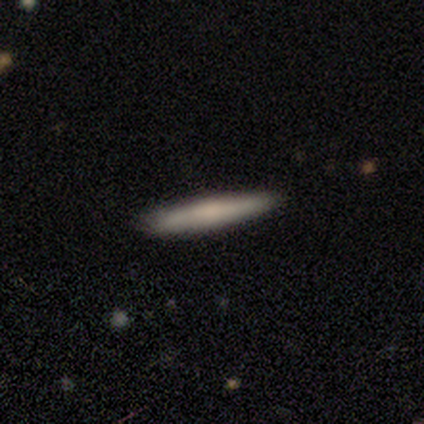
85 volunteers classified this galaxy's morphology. A smooth galaxy with no disk features (56%) that is cigar-shaped (98%).

Vote fractions:
- Smooth or featured? smooth: 56% / featured or disk: 38% / star or artifact: 6%
- How rounded? cigar-shaped: 98% / round: 2% / in between: 0%
- Merging? none: 89% / minor disturbance: 9% / merger: 2% / major disturbance: 0%